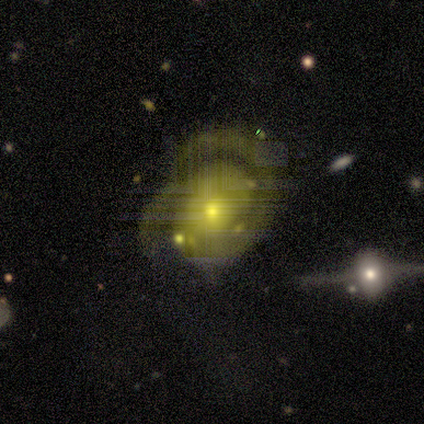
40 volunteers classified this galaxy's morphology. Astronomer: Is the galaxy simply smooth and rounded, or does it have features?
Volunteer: featured or disk — 85%.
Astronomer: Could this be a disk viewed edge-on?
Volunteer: no — 97%.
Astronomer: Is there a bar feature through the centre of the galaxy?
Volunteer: no — 76%.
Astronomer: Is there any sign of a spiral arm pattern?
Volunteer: yes — 97%.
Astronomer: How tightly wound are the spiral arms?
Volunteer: tight — 47% (runner-up: medium, 34%).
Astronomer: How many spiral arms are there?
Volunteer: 2 — 75%.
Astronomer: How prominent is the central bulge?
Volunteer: small — 48% (runner-up: moderate, 45%).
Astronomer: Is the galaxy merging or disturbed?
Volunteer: none — 41% (runner-up: major disturbance, 32%).